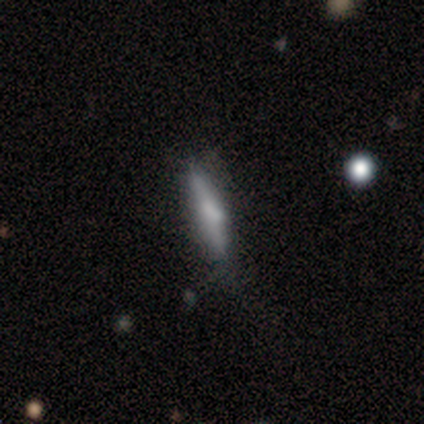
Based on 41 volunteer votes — Overall: smooth (56%; featured or disk 39%). How rounded: cigar-shaped (91%). Merging: none (59%; minor disturbance 23%).